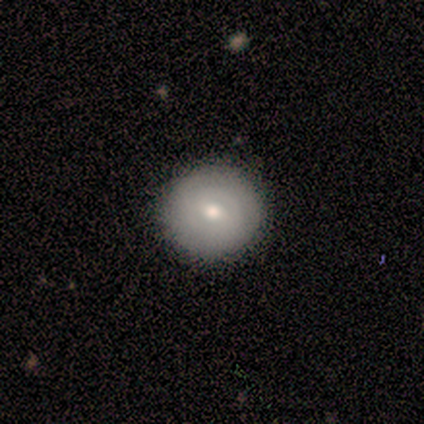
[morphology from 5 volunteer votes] Smooth or featured? smooth (80%)
How rounded? round (100%)
Merging? none (75%)